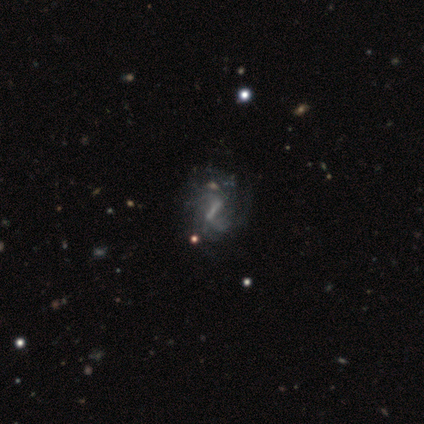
Smooth or featured: featured or disk — 75% (smooth — 12%)
Edge-on disk: no — 97% (yes — 3%)
Bar: strong — 62% (weak — 31%)
Spiral arms: yes — 97% (no — 3%)
Spiral winding: loose — 43% (medium — 36%)
Spiral arm count: can't tell — 39% (2 — 32%)
Bulge size: none — 59% (small — 24%)
Merging: none — 43% (minor disturbance — 14%)